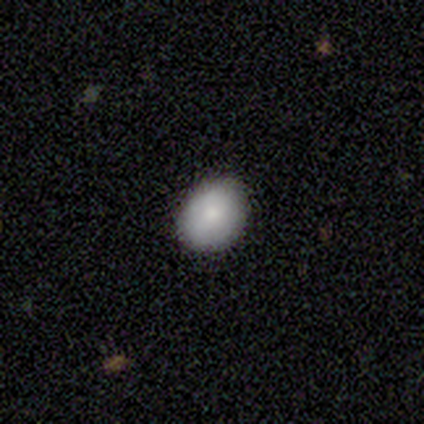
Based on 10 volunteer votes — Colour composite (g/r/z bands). It shows a smooth galaxy with no disk features (80%) that is in between round and cigar-shaped (75%). Merging: none (90%).